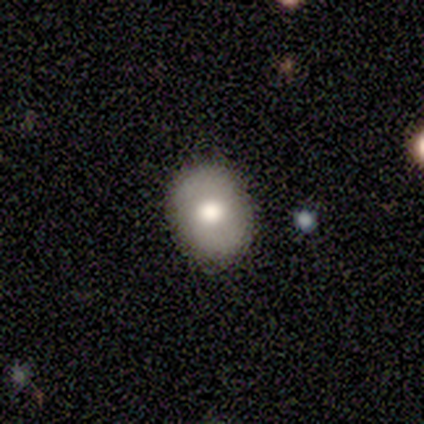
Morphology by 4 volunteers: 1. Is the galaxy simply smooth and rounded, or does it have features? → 50% smooth, 25% featured or disk, 25% star or artifact.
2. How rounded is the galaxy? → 50% round (tied), 50% in between (tied), 0% cigar-shaped.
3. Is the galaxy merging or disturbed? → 67% none, 33% minor disturbance, 0% major disturbance, 0% merger.